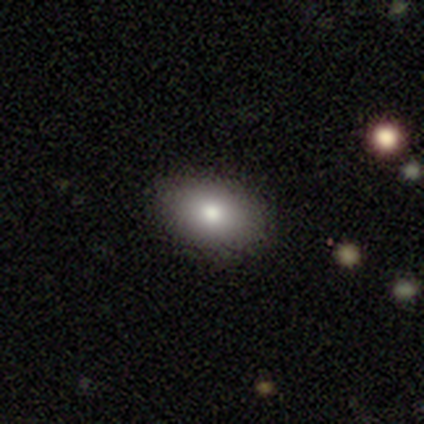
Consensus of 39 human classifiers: Volunteers were most divided on "how rounded": in between: 77%, round: 20%, cigar-shaped: 3%. More confident: merging — none (92%); smooth or featured — smooth (90%).